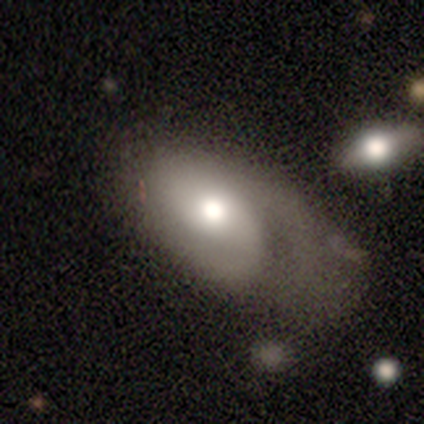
Q: Smooth or featured?
A: featured or disk (62%); runner-up: smooth (31%)
Q: Edge-on disk?
A: no (100%)
Q: Bar?
A: no (100%)
Q: Spiral arms?
A: yes (50%); tied with: no (50%)
Q: Spiral winding?
A: medium (60%); runner-up: tight (40%)
Q: Spiral arm count?
A: 2 (60%); runner-up: 1 (40%)
Q: Bulge size?
A: moderate (80%); runner-up: dominant (10%)
Q: Merging?
A: none (53%); runner-up: major disturbance (47%)